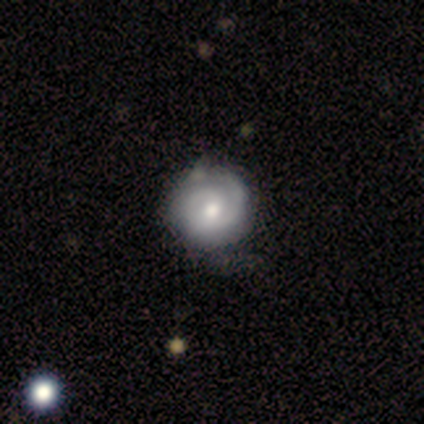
This appears to be a featured or disk galaxy (100%) with no bar (67%), 2 (62%) tight (75%) spiral arms (89%) and a moderate central bulge (67%). Merging: none (67%).